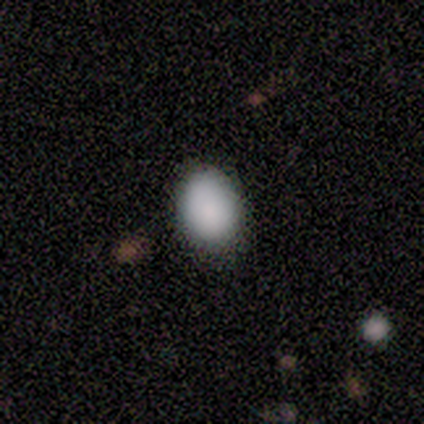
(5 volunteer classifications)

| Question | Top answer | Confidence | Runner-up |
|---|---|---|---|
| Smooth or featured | smooth | 100% | — |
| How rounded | round | 60% | in between (40%) |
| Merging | none | 100% | — |